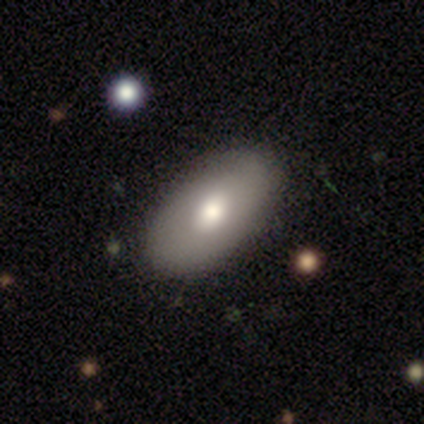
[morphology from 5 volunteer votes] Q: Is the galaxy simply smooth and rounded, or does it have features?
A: smooth — 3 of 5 (60%).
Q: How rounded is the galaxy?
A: in between — 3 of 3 (100%).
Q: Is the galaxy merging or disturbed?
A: none — 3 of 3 (100%).